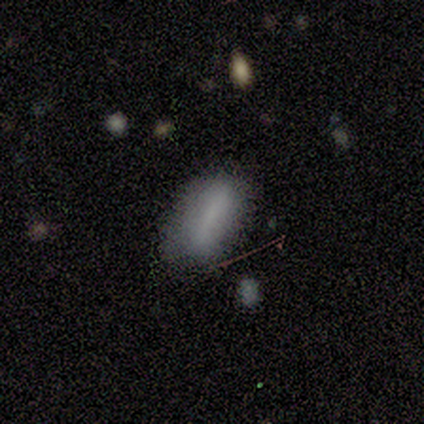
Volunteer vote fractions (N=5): This is clearly a smooth galaxy (80%). How rounded: clearly in between (100%). Merging: marginally none (40%, tied with minor disturbance).